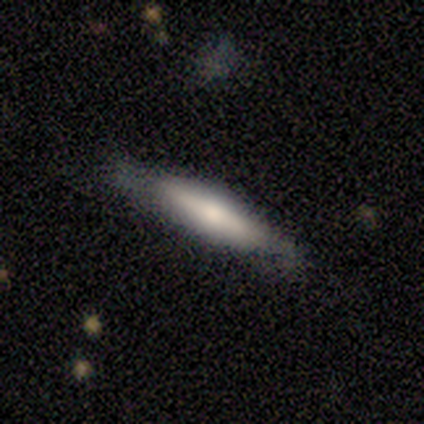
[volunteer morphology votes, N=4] This is likely a smooth galaxy (75%). How rounded: likely in between (67%). Merging: likely none (75%).